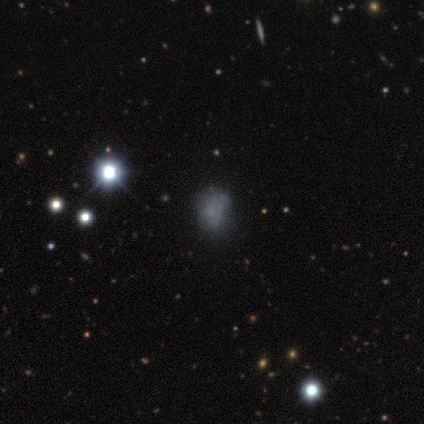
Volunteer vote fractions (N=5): smooth-or-featured: smooth: 60% | star or artifact: 40% | featured or disk: 0%
  how-rounded: in between: 67% | round: 33% | cigar-shaped: 0%
  merging: none: 67% | minor disturbance: 33% | major disturbance: 0% | merger: 0%